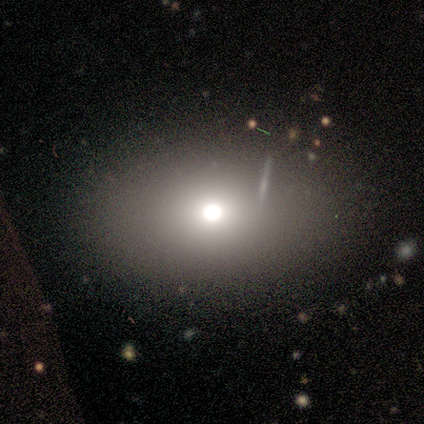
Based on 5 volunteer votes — A smooth galaxy with no disk features (60%) that is in between round and cigar-shaped (67%). Merging: none (60%).